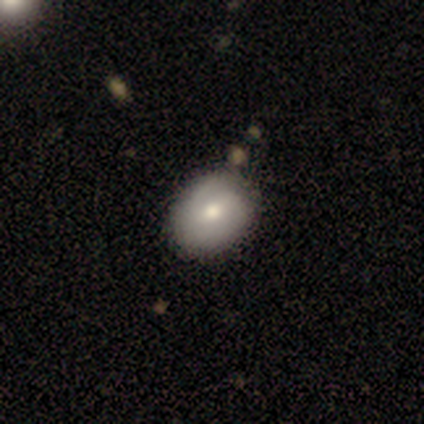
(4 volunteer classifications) featured or disk 50%, smooth 25%, star or artifact 25%. Down the decision tree: edge-on disk — no (100%); bar — weak (50%, tied with no); spiral arms — yes (100%); spiral arm count — 2 (100%); spiral winding — tight (100%); bulge size — moderate (50%, tied with small); merging — none (100%).